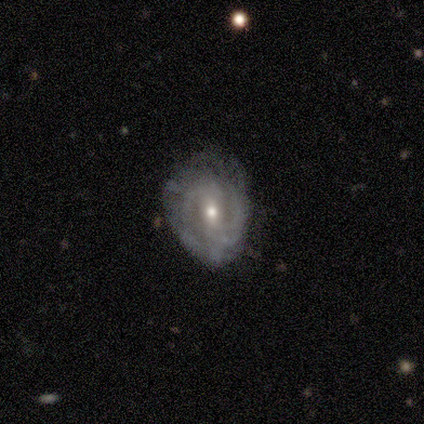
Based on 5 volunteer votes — smooth_or_featured: featured or disk (p=1.00)
disk_edge_on: no (p=1.00)
bar: weak (p=0.60) [alt: no p=0.40]
has_spiral_arms: yes (p=1.00)
spiral_winding: medium (p=0.60) [alt: tight p=0.40]
spiral_arm_count: 2 (p=0.40) [tied with: 3 p=0.40]
bulge_size: small (p=0.60) [alt: moderate p=0.40]
merging: none (p=0.60) [alt: minor disturbance p=0.40]